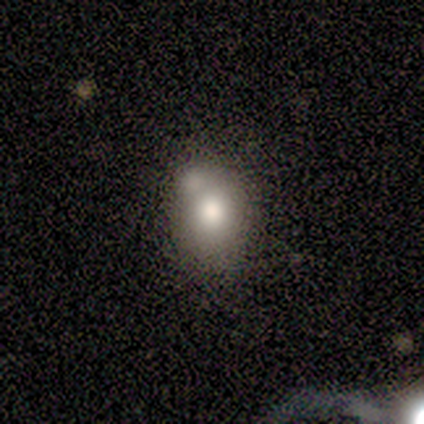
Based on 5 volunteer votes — Overall: smooth (80%). How rounded: in between (100%). Merging: none (60%; minor disturbance 20%).